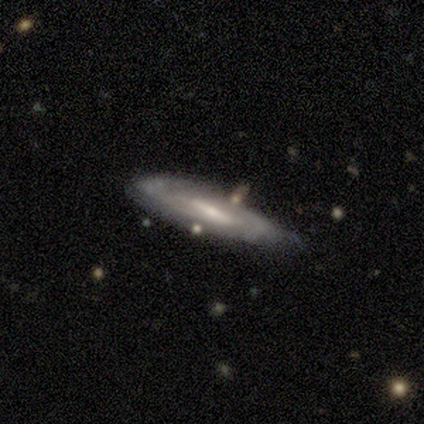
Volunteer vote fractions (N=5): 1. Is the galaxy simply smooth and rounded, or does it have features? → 80% featured or disk, 20% smooth, 0% star or artifact.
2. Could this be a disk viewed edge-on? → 50% yes (tied), 50% no (tied).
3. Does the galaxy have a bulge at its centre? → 100% rounded, 0% boxy, 0% none.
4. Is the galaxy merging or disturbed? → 60% none, 20% minor disturbance, 20% major disturbance, 0% merger.